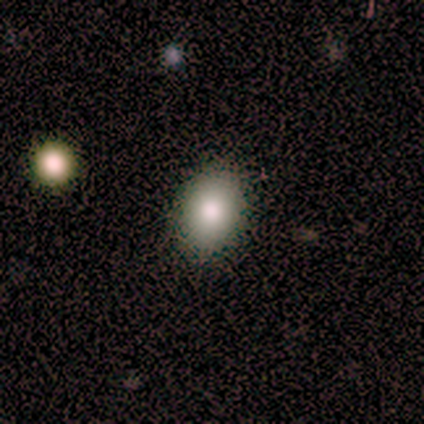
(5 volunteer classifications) smooth-or-featured: smooth: 80% | star or artifact: 20% | featured or disk: 0%
  how-rounded: in between: 100% | round: 0% | cigar-shaped: 0%
  merging: none: 100% | minor disturbance: 0% | major disturbance: 0% | merger: 0%